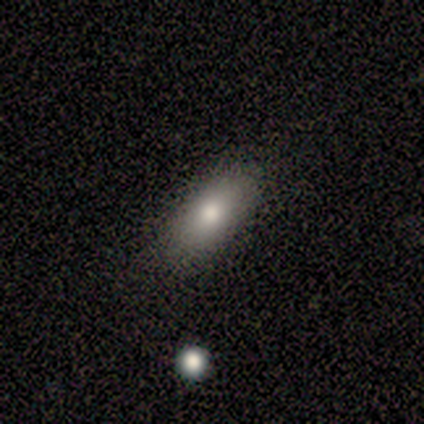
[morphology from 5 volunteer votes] Overall: smooth (60%; featured or disk 20%). How rounded: in between (100%). Merging: none (100%).